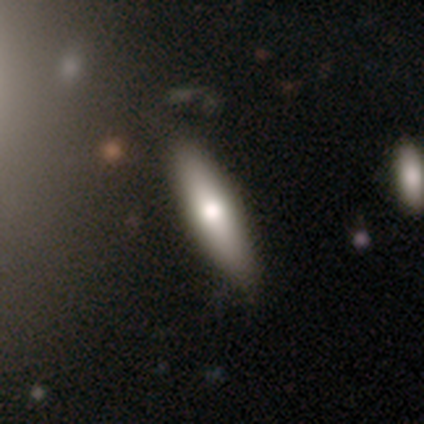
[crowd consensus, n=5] A featured or disk galaxy (60%) viewed edge-on (100%) with a rounded central bulge (100%). Merging: none (67%).